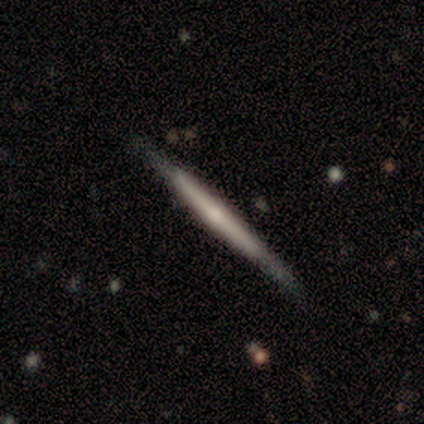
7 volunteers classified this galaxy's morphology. This appears to be a smooth galaxy with no disk features (57%) that is cigar-shaped (100%). Merging: none (86%).